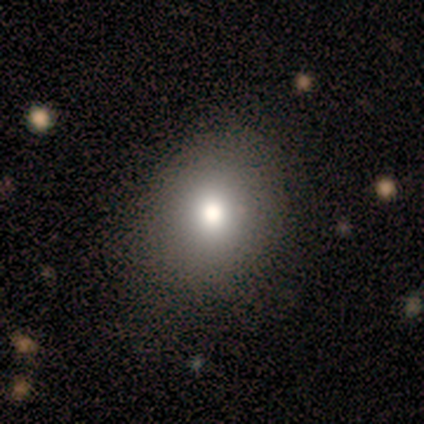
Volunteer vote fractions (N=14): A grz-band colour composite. It shows a smooth galaxy with no disk features (57%) that is round (50%, tied with in between). Merging: none (82%).